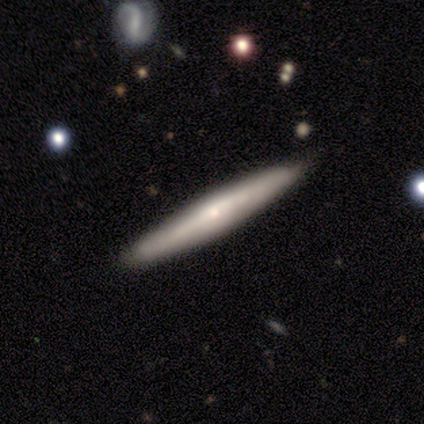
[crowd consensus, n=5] smooth 60%, featured or disk 40%, star or artifact 0%. Down the decision tree: how rounded — cigar-shaped (100%); merging — none (80%).